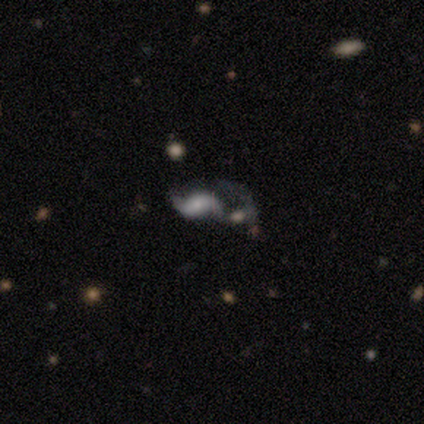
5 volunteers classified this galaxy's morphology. Volunteers were most divided on "smooth or featured" (2-way tie): featured or disk: 40%, star or artifact: 40%, smooth: 20%; "bar" (2-way tie): weak: 50%, no: 50%, strong: 0%; "spiral winding" (2-way tie): medium: 50%, loose: 50%, tight: 0%; "bulge size" (2-way tie): moderate: 50%, small: 50%, dominant: 0%, large: 0%, none: 0%. More confident: edge-on disk — no (100%); spiral arms — yes (100%); spiral arm count — 2 (100%); merging — merger (67%).